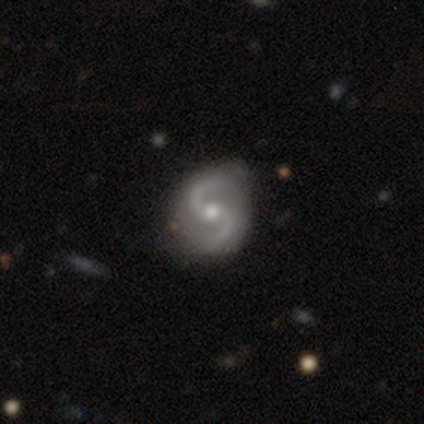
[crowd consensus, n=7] Smooth or featured?
  - featured or disk: 100% *
  - smooth: 0%
  - star or artifact: 0%
Edge-on disk?
  - no: 100% *
  - yes: 0%
Bar?
  - no: 57% *
  - weak: 43%
  - strong: 0%
Spiral arms?
  - yes: 100% *
  - no: 0%
Spiral winding?
  - medium: 86% *
  - loose: 14%
  - tight: 0%
Spiral arm count?
  - 2: 100% *
  - 1: 0%
  - 3: 0%
  - 4: 0%
  - more than 4: 0%
  - can't tell: 0%
Bulge size?
  - moderate: 86% *
  - small: 14%
  - dominant: 0%
  - large: 0%
  - none: 0%
Merging?
  - none: 86% *
  - minor disturbance: 14%
  - major disturbance: 0%
  - merger: 0%